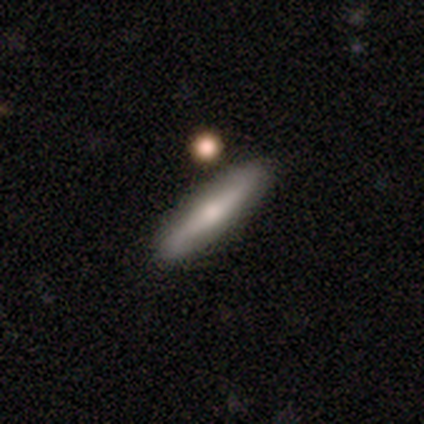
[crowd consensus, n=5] This is clearly a smooth galaxy (80%). How rounded: likely cigar-shaped (75%). Merging: clearly none (100%).